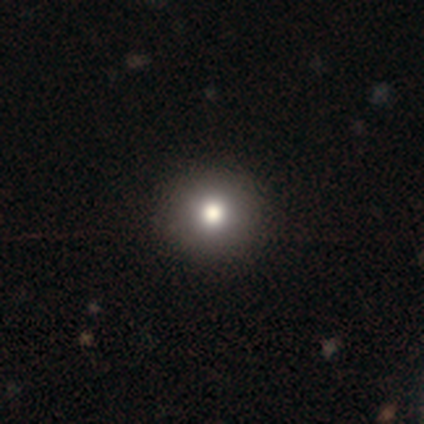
A smooth galaxy with no disk features (86%) that is round (99%). Merging: none (45%).